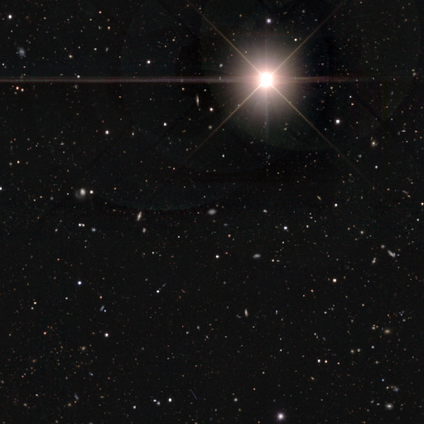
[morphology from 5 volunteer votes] This appears to be a star or artifact, not a galaxy (80%).